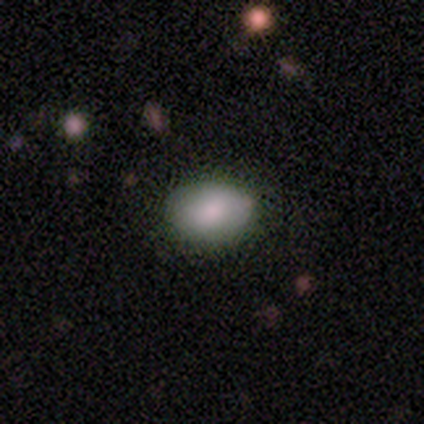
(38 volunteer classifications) Smooth or featured? 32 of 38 (84%) said smooth. How rounded? 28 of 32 (88%) said in between. Merging? 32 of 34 (94%) said none.